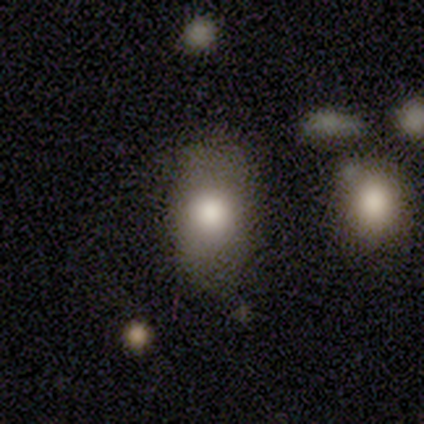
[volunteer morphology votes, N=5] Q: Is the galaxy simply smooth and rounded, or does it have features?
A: smooth — 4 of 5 (80%).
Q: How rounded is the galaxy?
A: in between — 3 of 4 (75%).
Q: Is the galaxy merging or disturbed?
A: none — 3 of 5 (60%).